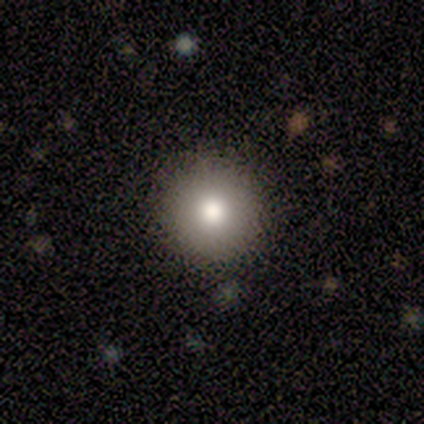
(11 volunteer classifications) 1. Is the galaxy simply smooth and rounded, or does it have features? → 100% smooth, 0% featured or disk, 0% star or artifact.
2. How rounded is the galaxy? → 100% round, 0% in between, 0% cigar-shaped.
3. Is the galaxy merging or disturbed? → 100% none, 0% minor disturbance, 0% major disturbance, 0% merger.